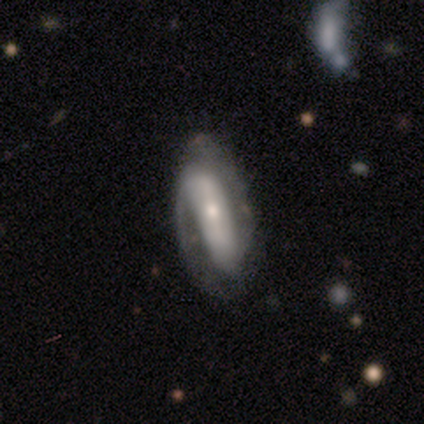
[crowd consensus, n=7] A featured or disk galaxy (71%) with a weak bar (60%), 1 (50%) tight (50%, tied with loose) spiral arms (80%) and a small central bulge (80%). Merging: none (86%).